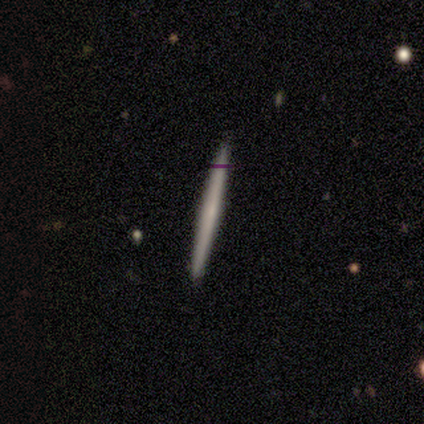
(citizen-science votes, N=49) This is marginally a smooth galaxy (45%). How rounded: clearly cigar-shaped (100%). Merging: clearly none (91%).